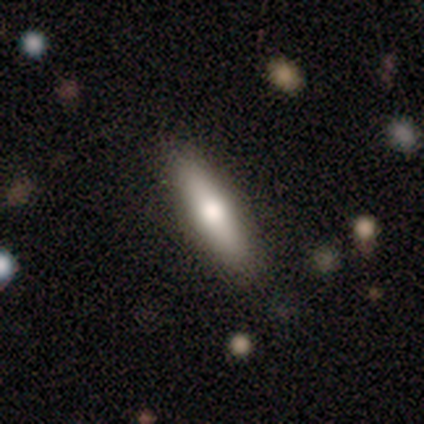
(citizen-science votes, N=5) Smooth or featured?
  - smooth: 100% *
  - featured or disk: 0%
  - star or artifact: 0%
How rounded?
  - cigar-shaped: 60% *
  - in between: 40%
  - round: 0%
Merging?
  - none: 100% *
  - minor disturbance: 0%
  - major disturbance: 0%
  - merger: 0%